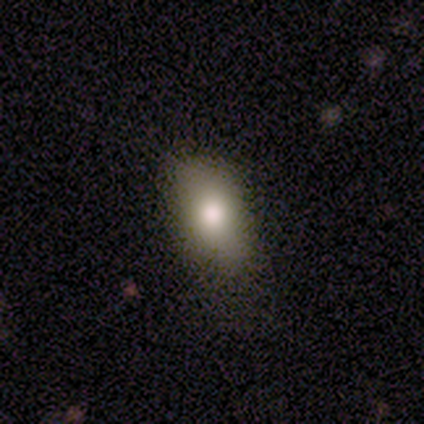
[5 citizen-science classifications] Smooth or featured?
  - smooth: 80% *
  - star or artifact: 20%
  - featured or disk: 0%
How rounded?
  - in between: 100% *
  - round: 0%
  - cigar-shaped: 0%
Merging?
  - none: 100% *
  - minor disturbance: 0%
  - major disturbance: 0%
  - merger: 0%